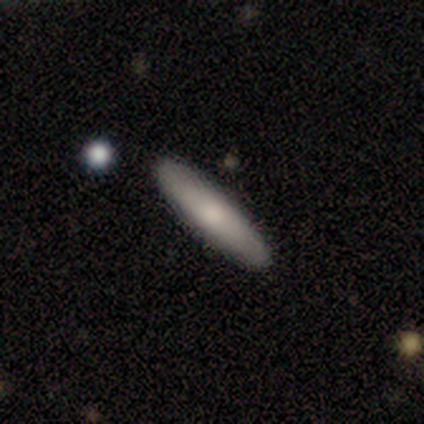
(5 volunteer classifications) Morphology: type=smooth (80%); roundness=in between (50%, tied with cigar-shaped); merging=none (80%).